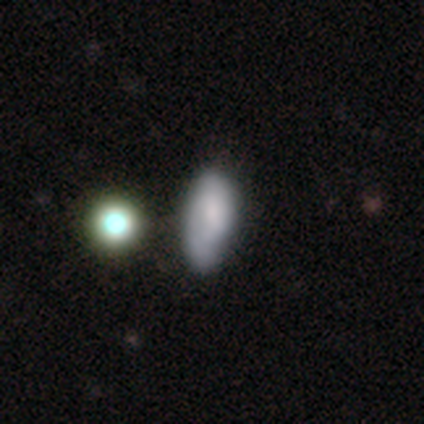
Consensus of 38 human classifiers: Smooth or featured? smooth (74%)
How rounded? in between (96%)
Merging? none (56%)